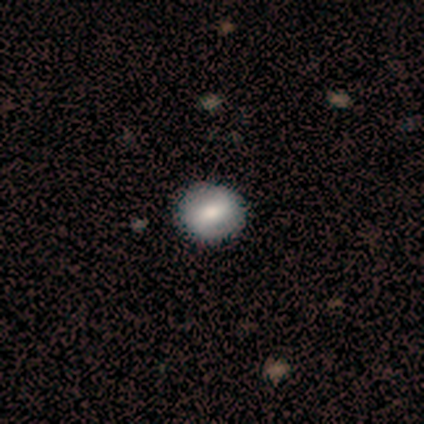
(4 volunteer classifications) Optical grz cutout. It shows a smooth galaxy with no disk features (100%) that is round (75%). Merging: none (100%).